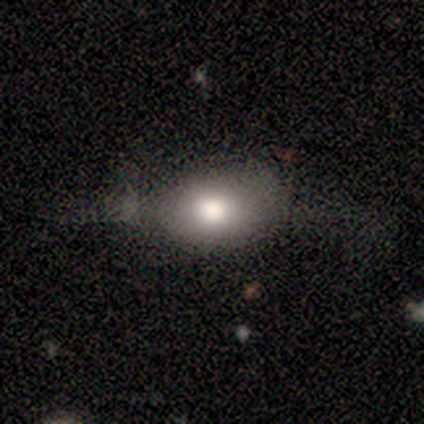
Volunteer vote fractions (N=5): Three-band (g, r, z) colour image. It shows a smooth galaxy with no disk features (80%) that is round (50%). Merging: none (80%).